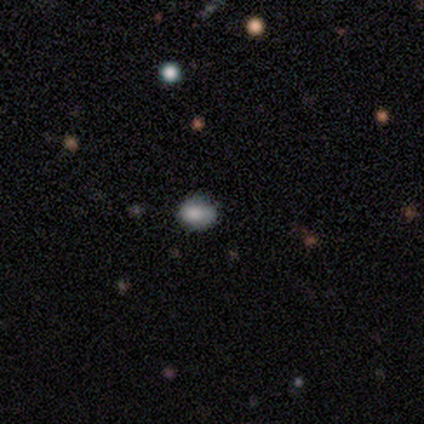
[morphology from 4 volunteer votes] This is clearly a smooth galaxy (100%). How rounded: possibly round (50%, tied with in between). Merging: clearly none (100%).